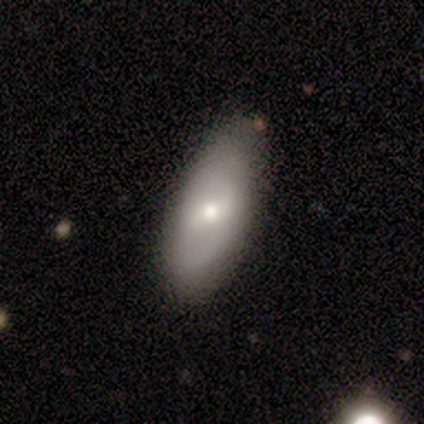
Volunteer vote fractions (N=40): Q: Smooth or featured?
A: smooth (50%); runner-up: featured or disk (45%)
Q: How rounded?
A: in between (95%); runner-up: cigar-shaped (5%)
Q: Merging?
A: none (63%); runner-up: minor disturbance (11%)